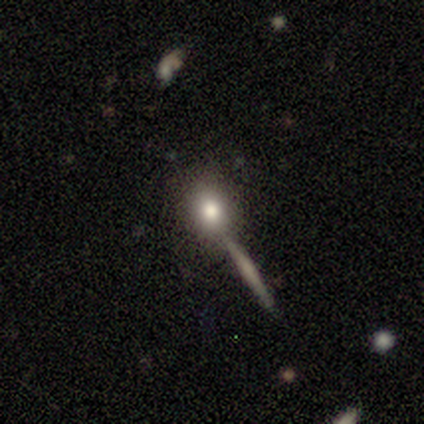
Smooth or featured?
  - smooth: 100% *
  - featured or disk: 0%
  - star or artifact: 0%
How rounded?
  - round: 60% *
  - in between: 40%
  - cigar-shaped: 0%
Merging?
  - none: 100% *
  - minor disturbance: 0%
  - major disturbance: 0%
  - merger: 0%